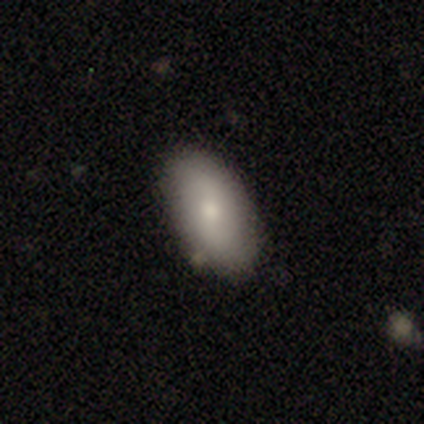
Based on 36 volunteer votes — Volunteers were most divided on "merging": none: 72%, minor disturbance: 22%, major disturbance: 3%, merger: 3%. More confident: how rounded — in between (89%); smooth or featured — smooth (75%).